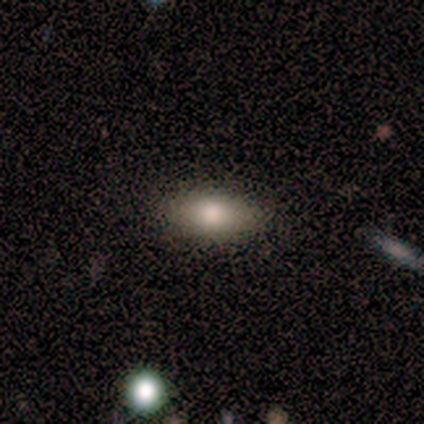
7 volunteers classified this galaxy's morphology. A smooth galaxy with no disk features (86%) that is in between round and cigar-shaped (83%).

Vote fractions:
- Smooth or featured? smooth: 86% / featured or disk: 14% / star or artifact: 0%
- How rounded? in between: 83% / round: 17% / cigar-shaped: 0%
- Merging? none: 86% / minor disturbance: 14% / major disturbance: 0% / merger: 0%